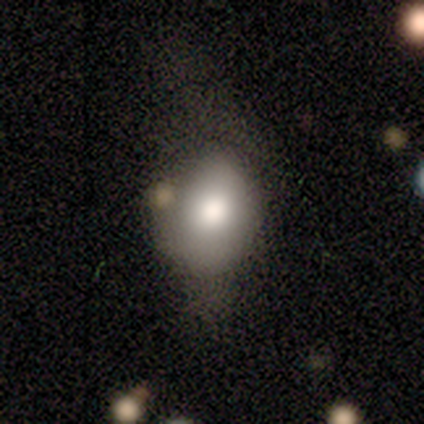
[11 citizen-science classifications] Smooth or featured: smooth — 91% (featured or disk — 9%)
How rounded: in between — 90% (round — 10%)
Merging: minor disturbance — 45% (none — 27%)